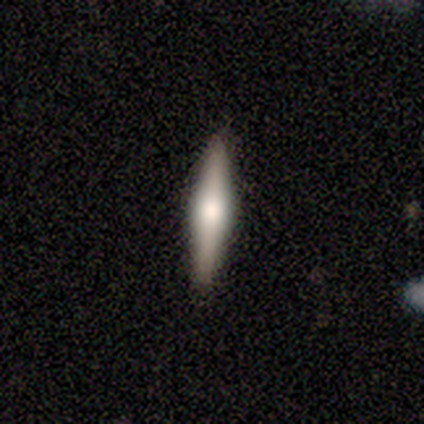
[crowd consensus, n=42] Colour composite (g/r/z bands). It shows a featured or disk galaxy (60%) viewed edge-on (100%) with a rounded central bulge (80%). Merging: none (88%).